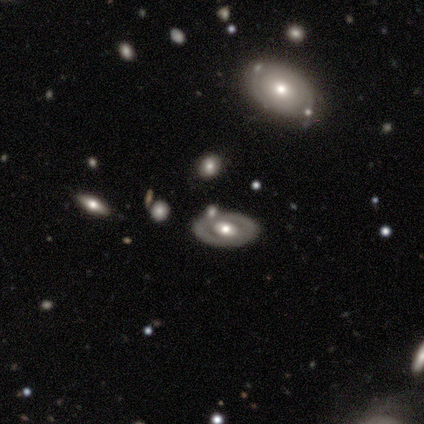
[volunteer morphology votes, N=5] smooth_or_featured: featured or disk (p=0.60) [alt: smooth p=0.20]
disk_edge_on: no (p=0.67) [alt: yes p=0.33]
bar: no (p=1.00)
has_spiral_arms: no (p=1.00)
bulge_size: moderate (p=1.00)
merging: none (p=0.75) [alt: minor disturbance p=0.25]